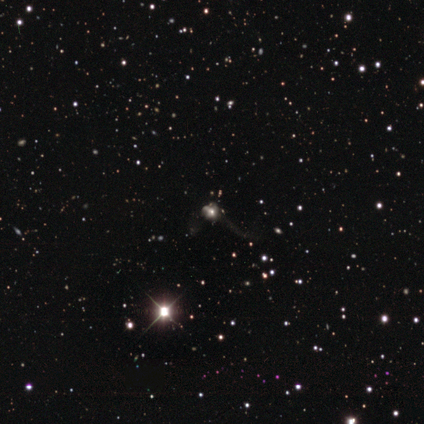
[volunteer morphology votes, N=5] A smooth galaxy with no disk features (60%) that is round (100%). Merging: none (75%).